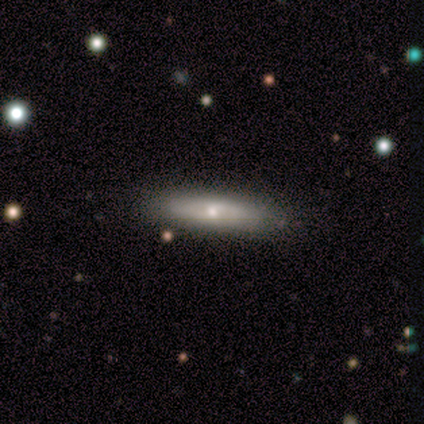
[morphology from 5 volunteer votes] This is likely a featured or disk galaxy (60%). It is likely not viewed edge-on (67%). Bar: possibly weak (50%, tied with no). Spiral arm pattern: possibly yes (50%, tied with no). Spiral arm count: clearly can't tell (100%). Spiral winding: clearly loose (100%). Central bulge: clearly small (100%). Merging: clearly none (100%).